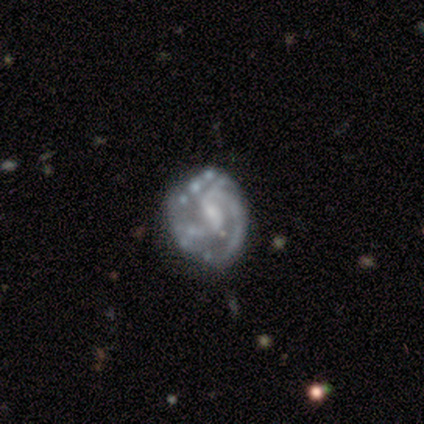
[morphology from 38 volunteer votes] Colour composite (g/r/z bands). It shows a featured or disk galaxy (100%) with a weak bar (47%), medium (53%) spiral arms (100%) and a small central bulge (63%). Merging: none (55%).